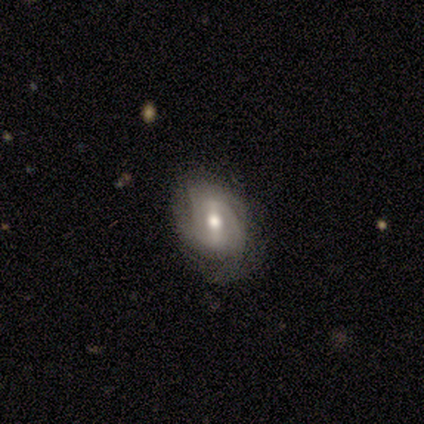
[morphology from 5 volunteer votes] This appears to be a featured or disk galaxy (60%) with a weak bar (67%), medium (67%) spiral arms (100%) and a moderate central bulge (67%). Merging: none (50%).